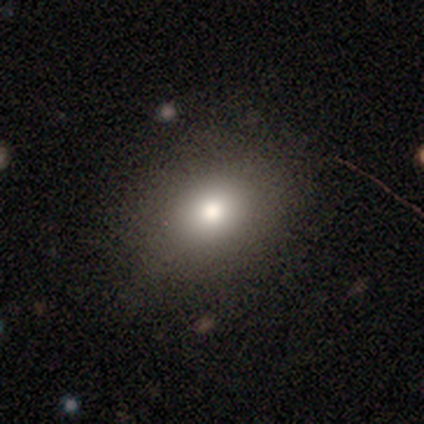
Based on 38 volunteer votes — Smooth or featured? 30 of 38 (79%) said smooth. How rounded? 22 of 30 (73%) said in between. Merging? 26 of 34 (76%) said none.